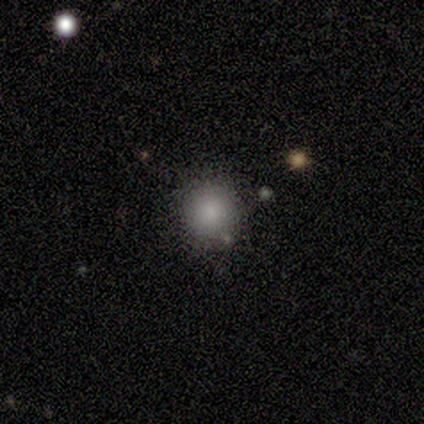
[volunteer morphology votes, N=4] Overall: smooth (100%). How rounded: round (100%). Merging: none (75%).